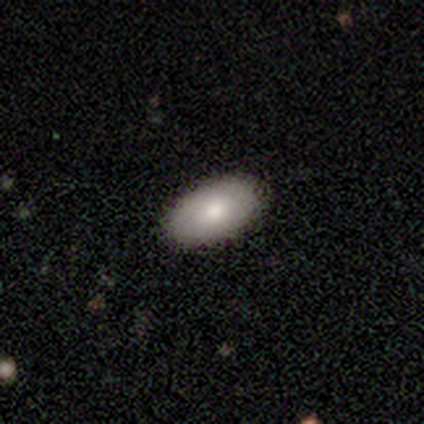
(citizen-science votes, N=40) Overall: smooth (88%). How rounded: in between (97%). Merging: none (90%).